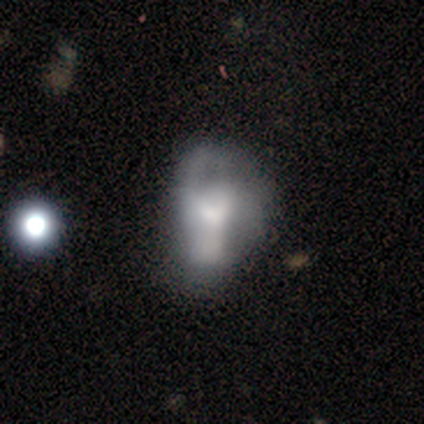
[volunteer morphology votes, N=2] This appears to be a smooth galaxy with no disk features (50%, tied with featured or disk) that is in between round and cigar-shaped (100%). Merging: major disturbance (50%, tied with merger).